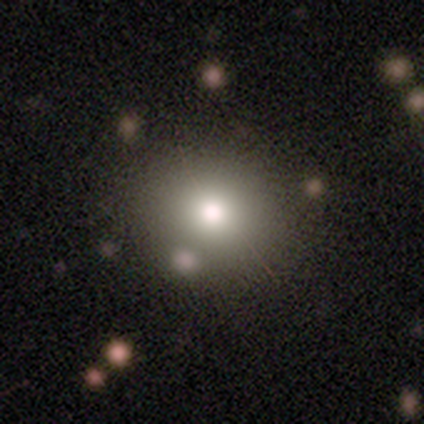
smooth-or-featured: smooth: 85% | featured or disk: 9% | star or artifact: 7%
  how-rounded: round: 73% | in between: 27% | cigar-shaped: 0%
  merging: none: 87% | minor disturbance: 8% | merger: 4% | major disturbance: 1%